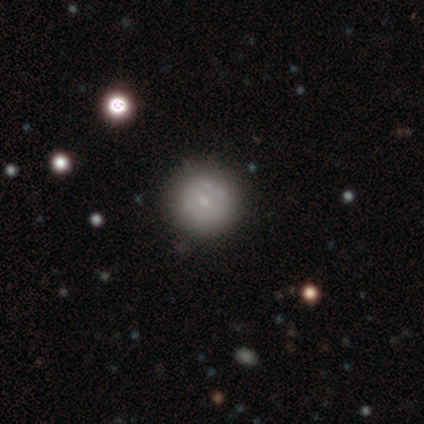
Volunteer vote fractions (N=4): Smooth or featured: smooth — 75% (featured or disk — 25%)
How rounded: round — 100%
Merging: none — 100%